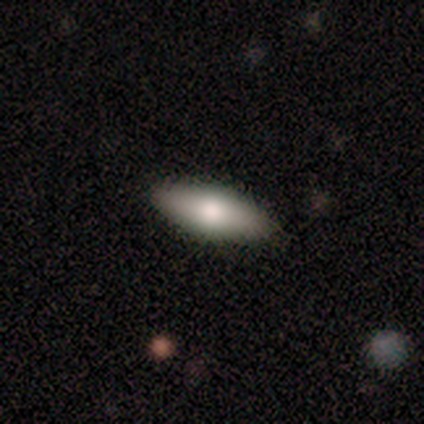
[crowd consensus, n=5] smooth 80%, featured or disk 20%, star or artifact 0%. Down the decision tree: how rounded — in between (100%); merging — none (80%).